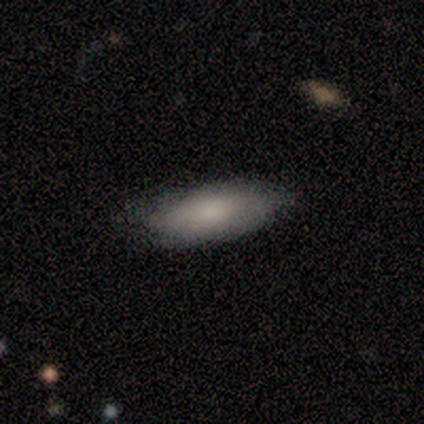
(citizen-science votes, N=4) smooth_or_featured: smooth (p=0.75) [alt: featured or disk p=0.25]
how_rounded: in between (p=1.00)
merging: minor disturbance (p=0.75) [alt: none p=0.25]